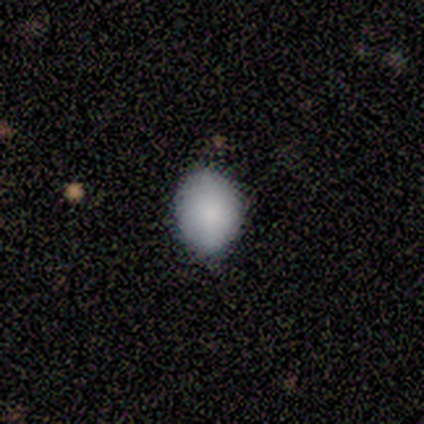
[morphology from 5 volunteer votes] smooth-or-featured: smooth: 80% | featured or disk: 20% | star or artifact: 0%
  how-rounded: round: 50% | in between: 25% | cigar-shaped: 25%
  merging: none: 80% | minor disturbance: 20% | major disturbance: 0% | merger: 0%